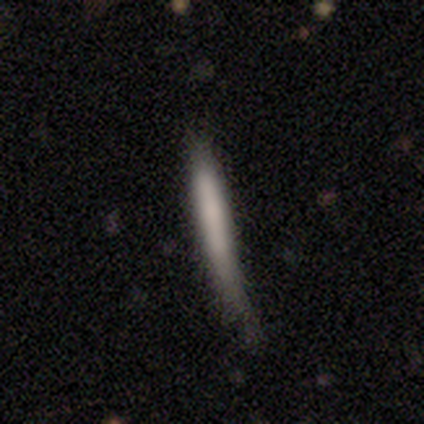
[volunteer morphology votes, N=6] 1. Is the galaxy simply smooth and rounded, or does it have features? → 83% smooth, 17% featured or disk, 0% star or artifact.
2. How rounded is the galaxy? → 100% cigar-shaped, 0% round, 0% in between.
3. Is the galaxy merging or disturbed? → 50% none, 33% minor disturbance, 17% major disturbance, 0% merger.